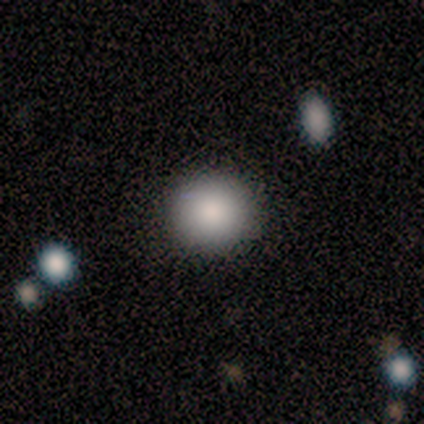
smooth 100%, featured or disk 0%, star or artifact 0%. Down the decision tree: how rounded — round (100%); merging — none (100%).